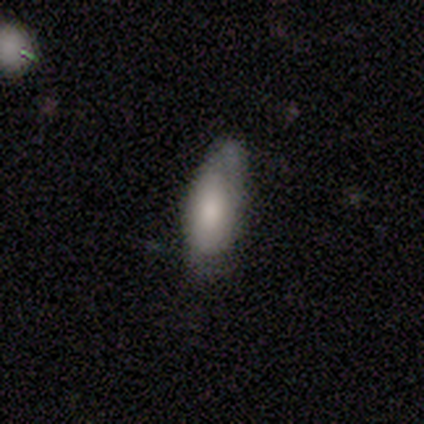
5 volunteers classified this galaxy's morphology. Q: Smooth or featured?
A: smooth (80%); runner-up: featured or disk (20%)
Q: How rounded?
A: in between (75%); runner-up: cigar-shaped (25%)
Q: Merging?
A: minor disturbance (60%); runner-up: none (40%)